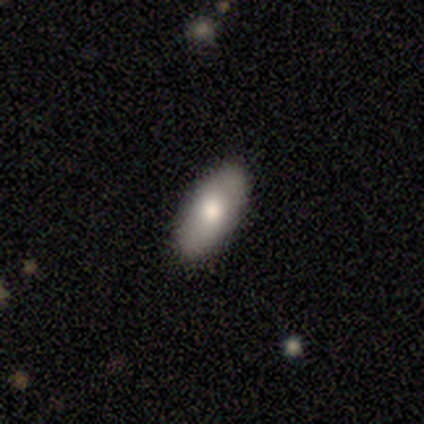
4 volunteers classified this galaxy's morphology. Overall: smooth (100%). How rounded: in between (100%). Merging: none (75%).